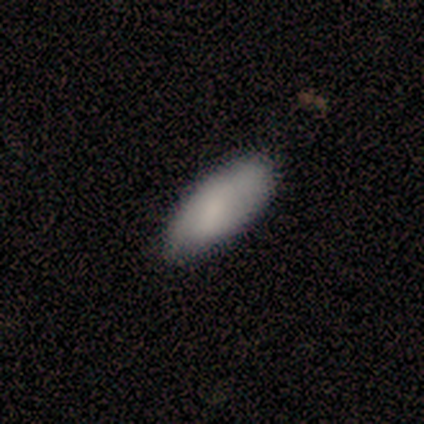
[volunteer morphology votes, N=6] Smooth or featured? 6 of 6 (100%) said smooth. How rounded? 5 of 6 (83%) said in between. Merging? 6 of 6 (100%) said none.